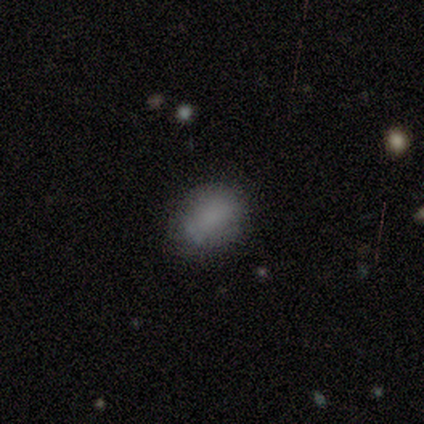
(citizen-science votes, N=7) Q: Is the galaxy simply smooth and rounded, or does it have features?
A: smooth — 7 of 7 (100%).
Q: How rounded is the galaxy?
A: in between — 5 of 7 (71%).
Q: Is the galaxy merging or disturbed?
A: none — 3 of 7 (43%).